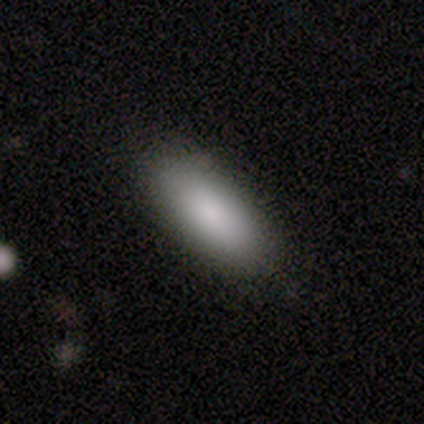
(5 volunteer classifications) This appears to be a smooth galaxy with no disk features (100%) that is in between round and cigar-shaped (100%). Merging: none (80%).